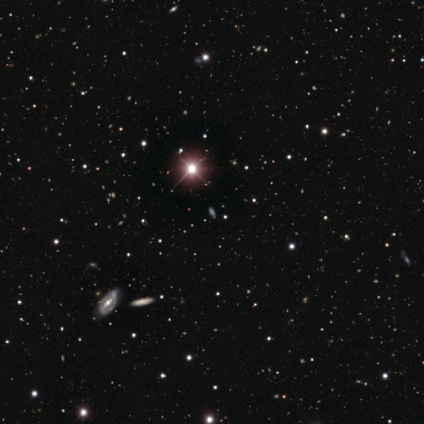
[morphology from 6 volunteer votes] smooth-or-featured: star or artifact: 100% | smooth: 0% | featured or disk: 0%